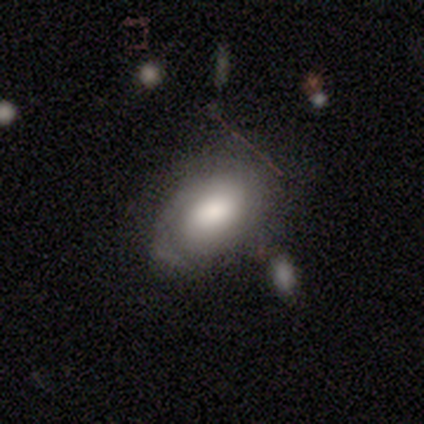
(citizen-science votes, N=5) smooth-or-featured: smooth: 60% | featured or disk: 40% | star or artifact: 0%
  how-rounded: in between: 67% | round: 33% | cigar-shaped: 0%
  merging: none: 80% | major disturbance: 20% | minor disturbance: 0% | merger: 0%